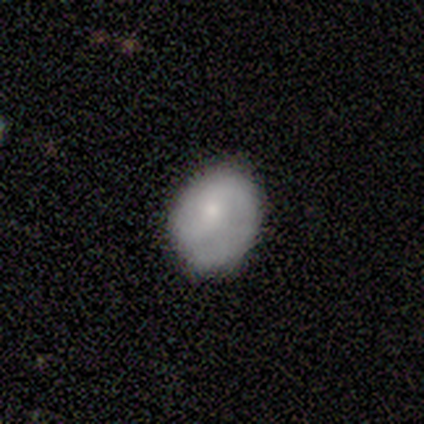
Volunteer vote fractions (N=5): smooth-or-featured: smooth: 40% (tied) | featured or disk: 40% (tied) | star or artifact: 20%
  how-rounded: round: 50% (tied) | in between: 50% (tied) | cigar-shaped: 0%
  merging: none: 75% | minor disturbance: 25% | major disturbance: 0% | merger: 0%